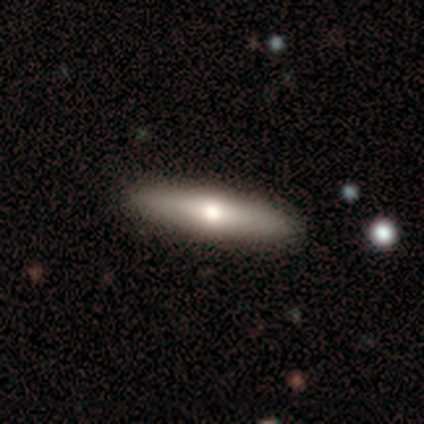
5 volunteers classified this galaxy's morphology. Overall: smooth (80%). How rounded: cigar-shaped (75%). Merging: none (100%).